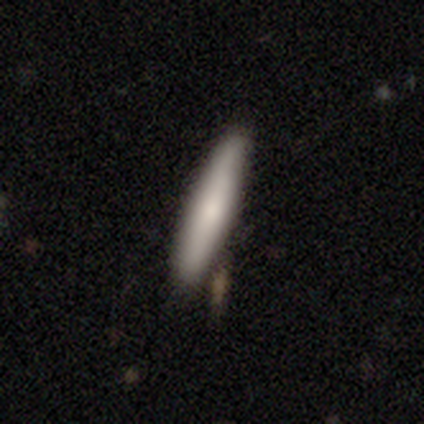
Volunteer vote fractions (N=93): Overall: smooth (70%). How rounded: cigar-shaped (97%). Merging: none (79%).